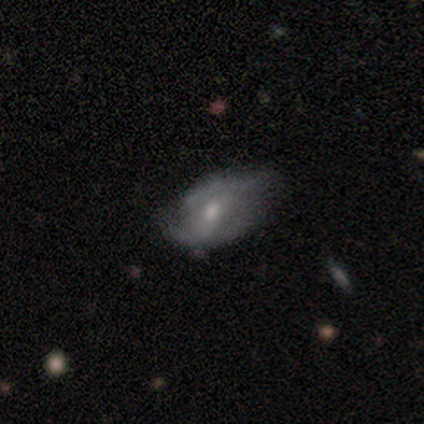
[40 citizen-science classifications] Smooth or featured? featured or disk (65%)
Edge-on disk? no (88%)
Bar? no (57%)
Spiral arms? yes (61%)
Spiral winding? medium (43%)
Spiral arm count? 2 (43%)
Bulge size? moderate (61%)
Merging? minor disturbance (42%)